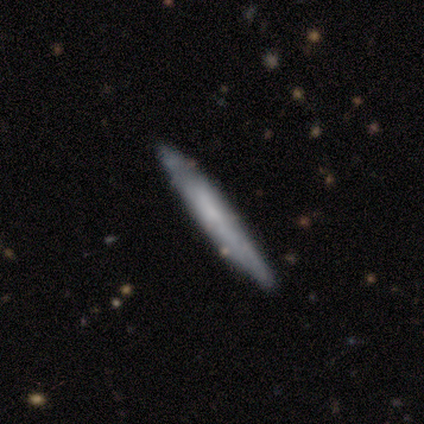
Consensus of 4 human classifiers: Smooth or featured? smooth (50%, tied with featured or disk)
How rounded? cigar-shaped (100%)
Merging? none (50%, tied with minor disturbance)